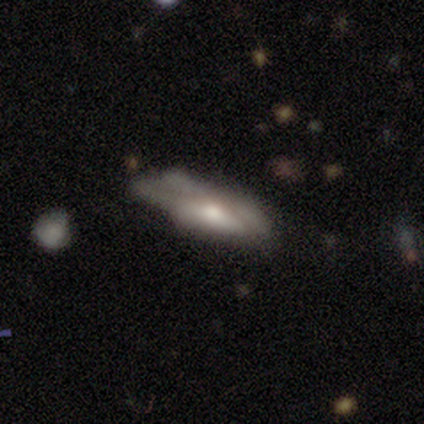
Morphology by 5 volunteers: A featured or disk galaxy (80%) with no bar (67%), no spiral arms (67%) and a small central bulge (67%). Merging: none (50%, tied with major disturbance).